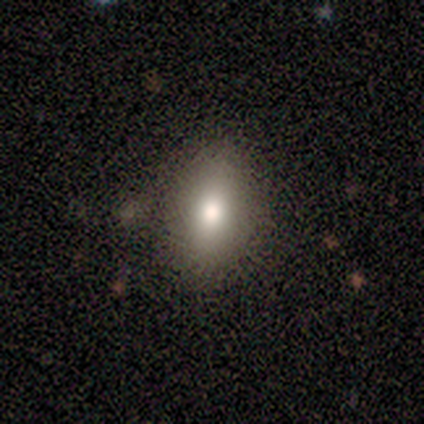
smooth-or-featured: smooth: 71% | featured or disk: 29% | star or artifact: 0%
  how-rounded: in between: 100% | round: 0% | cigar-shaped: 0%
  merging: none: 71% | minor disturbance: 29% | major disturbance: 0% | merger: 0%